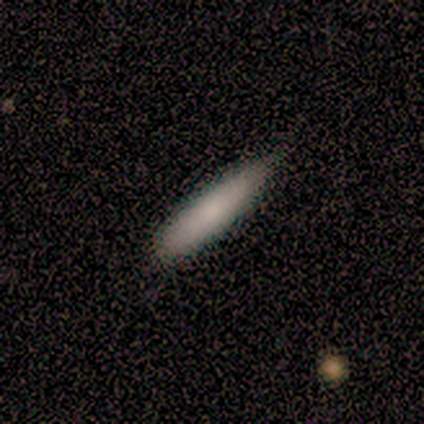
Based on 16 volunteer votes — Smooth or featured: smooth — 81% (featured or disk — 12%)
How rounded: cigar-shaped — 100%
Merging: minor disturbance — 53% (none — 47%)